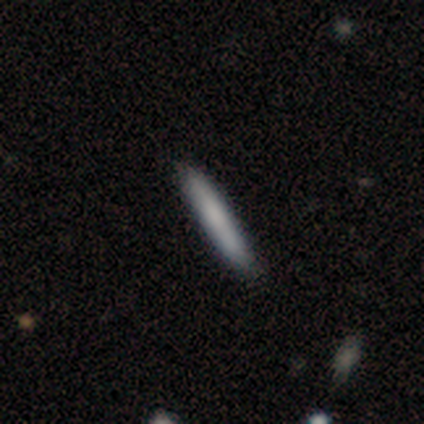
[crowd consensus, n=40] Smooth or featured?
  - smooth: 70% *
  - featured or disk: 25%
  - star or artifact: 5%
How rounded?
  - cigar-shaped: 100% *
  - round: 0%
  - in between: 0%
Merging?
  - none: 84% *
  - minor disturbance: 11%
  - merger: 5%
  - major disturbance: 0%